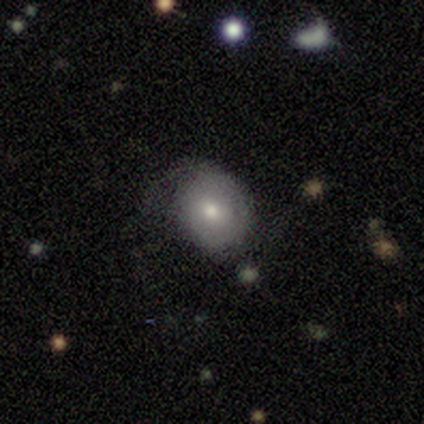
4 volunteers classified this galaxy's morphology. This appears to be a smooth galaxy with no disk features (50%) that is round (100%). Merging: minor disturbance (67%).